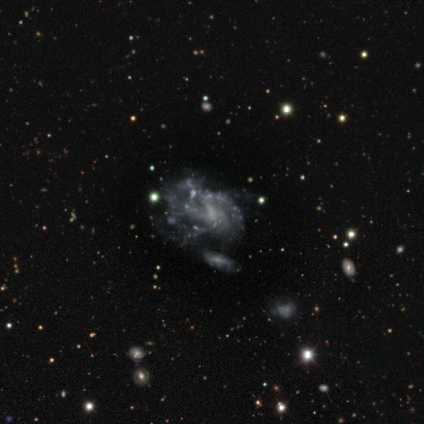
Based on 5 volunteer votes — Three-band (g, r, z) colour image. It shows a featured or disk galaxy (100%) with no bar (60%), medium (60%) spiral arms (100%) and a moderate central bulge (40%, tied with none). Merging: none (40%, tied with major disturbance).